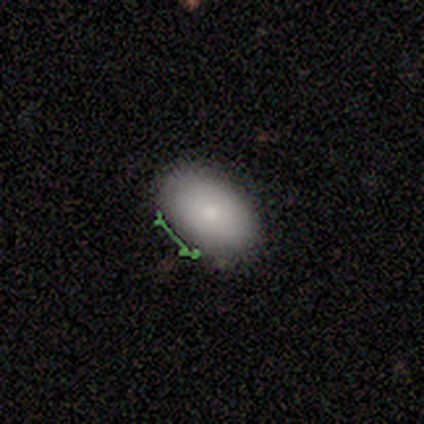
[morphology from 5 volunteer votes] A smooth galaxy with no disk features (80%) that is in between round and cigar-shaped (100%). Merging: none (80%).